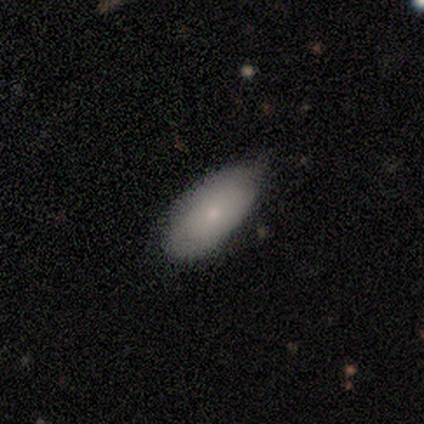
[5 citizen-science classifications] This is clearly a smooth galaxy (80%). How rounded: clearly in between (100%). Merging: clearly none (80%).